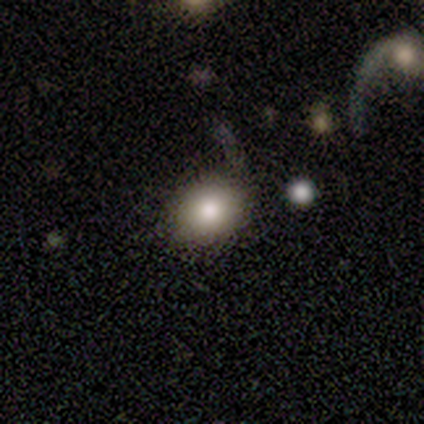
A smooth galaxy with no disk features (80%) that is round (50%, tied with in between).

Vote fractions:
- Smooth or featured? smooth: 80% / featured or disk: 20% / star or artifact: 0%
- How rounded? round: 50% (tied) / in between: 50% (tied) / cigar-shaped: 0%
- Merging? none: 60% / major disturbance: 20% / merger: 20% / minor disturbance: 0%